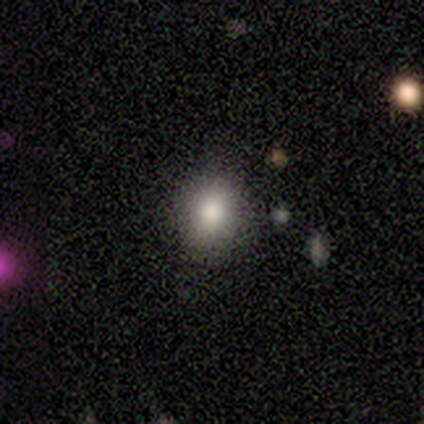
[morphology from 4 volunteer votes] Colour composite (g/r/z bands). It shows a smooth galaxy with no disk features (100%) that is round (75%). Merging: none (100%).